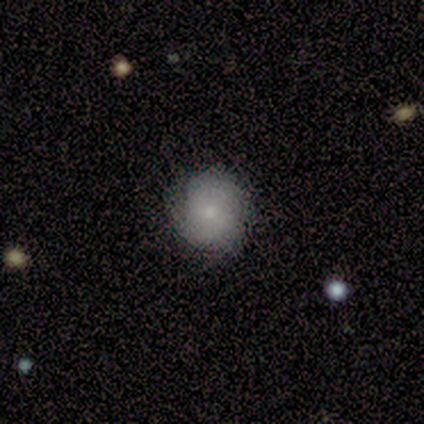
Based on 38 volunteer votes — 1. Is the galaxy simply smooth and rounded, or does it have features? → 74% smooth, 13% featured or disk, 13% star or artifact.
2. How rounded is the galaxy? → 86% round, 14% in between, 0% cigar-shaped.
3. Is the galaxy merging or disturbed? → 76% none, 18% minor disturbance, 3% major disturbance, 3% merger.